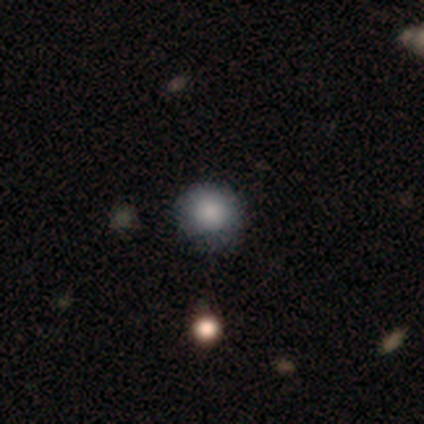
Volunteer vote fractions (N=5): Smooth or featured?
  - smooth: 100% *
  - featured or disk: 0%
  - star or artifact: 0%
How rounded?
  - round: 100% *
  - in between: 0%
  - cigar-shaped: 0%
Merging?
  - none: 80% *
  - minor disturbance: 20%
  - major disturbance: 0%
  - merger: 0%